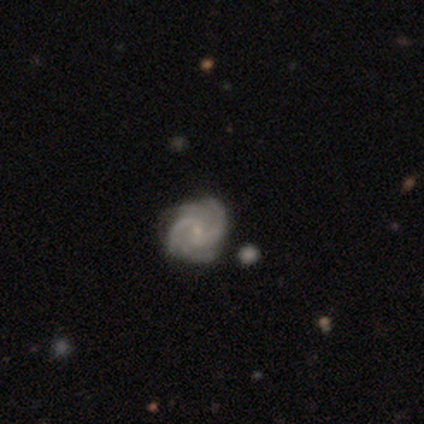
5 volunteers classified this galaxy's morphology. featured or disk 100%, smooth 0%, star or artifact 0%. Down the decision tree: edge-on disk — no (100%); bar — no (80%); spiral arms — yes (100%); spiral arm count — 2 (40%, tied with can't tell); spiral winding — medium (80%); bulge size — small (80%); merging — none (80%).